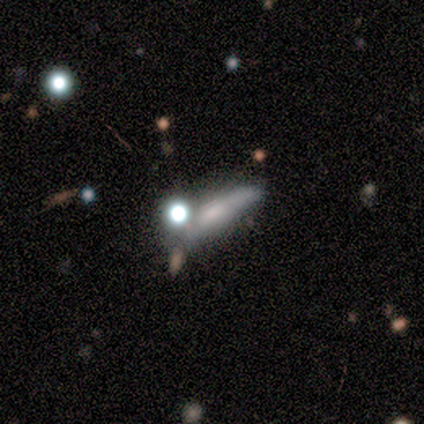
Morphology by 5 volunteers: smooth-or-featured: featured or disk: 60% | smooth: 20% | star or artifact: 20%
  disk-edge-on: no: 67% | yes: 33%
    bar: no: 100% | strong: 0% | weak: 0%
    has-spiral-arms: no: 100% | yes: 0%
    bulge-size: small: 50% (tied) | none: 50% (tied) | dominant: 0% | large: 0% | moderate: 0%
  merging: merger: 75% | major disturbance: 25% | none: 0% | minor disturbance: 0%